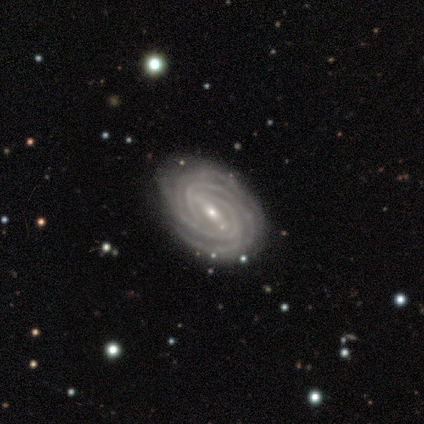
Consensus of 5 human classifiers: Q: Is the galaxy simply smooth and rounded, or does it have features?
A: featured or disk — 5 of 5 (100%).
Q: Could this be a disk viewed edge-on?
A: no — 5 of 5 (100%).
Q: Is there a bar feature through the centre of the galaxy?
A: strong — 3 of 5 (60%).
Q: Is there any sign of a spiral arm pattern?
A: yes — 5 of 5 (100%).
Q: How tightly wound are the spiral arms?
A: tight — 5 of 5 (100%).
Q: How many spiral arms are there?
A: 4 — 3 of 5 (60%).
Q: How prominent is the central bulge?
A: moderate — 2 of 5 (40%, tied with small).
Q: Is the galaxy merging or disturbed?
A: none — 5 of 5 (100%).